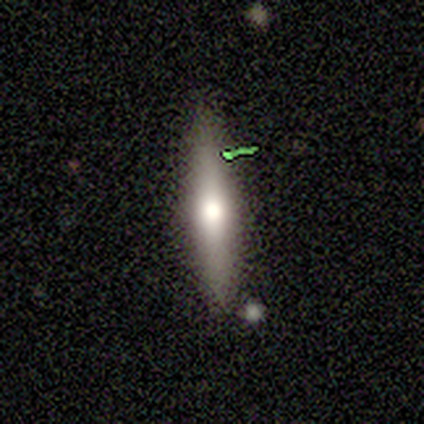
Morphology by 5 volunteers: Smooth or featured? smooth (60%)
How rounded? cigar-shaped (100%)
Merging? none (50%)